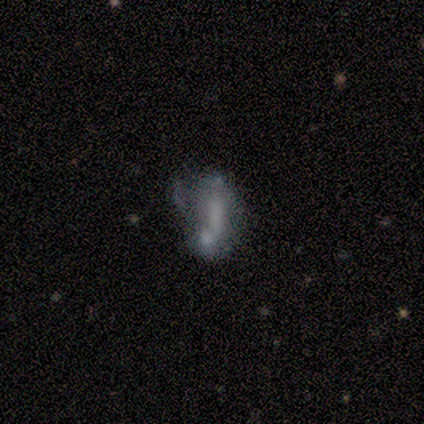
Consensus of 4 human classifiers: Smooth or featured? 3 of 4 (75%) said smooth. How rounded? 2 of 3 (67%) said in between. Merging? 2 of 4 (50%) said merger.